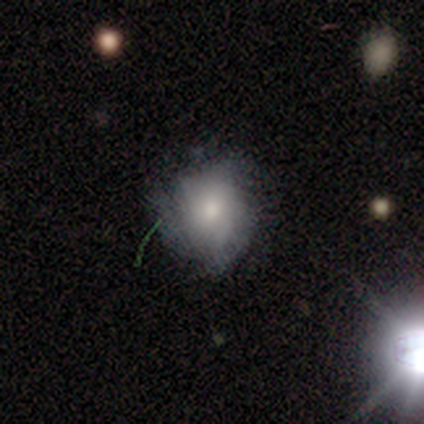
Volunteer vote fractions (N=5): Smooth or featured: smooth — 60% (featured or disk — 20%)
How rounded: in between — 67% (round — 33%)
Merging: none — 100%